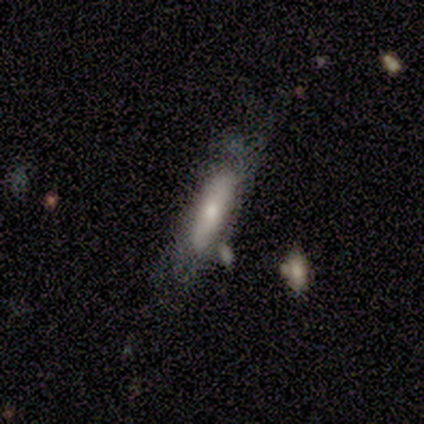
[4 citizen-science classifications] Smooth or featured? 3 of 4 (75%) said smooth. How rounded? 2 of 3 (67%) said cigar-shaped. Merging? 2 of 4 (50%) said none.